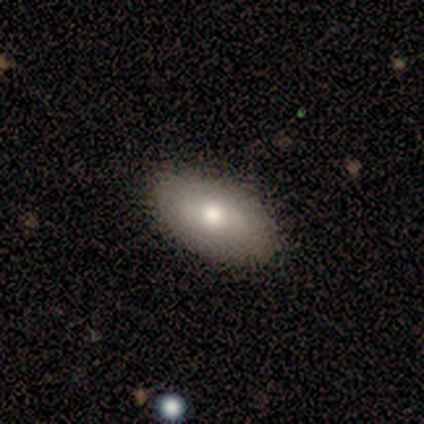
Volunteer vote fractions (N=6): Volunteers were most divided on "smooth or featured": smooth: 83%, featured or disk: 17%, star or artifact: 0%. More confident: how rounded — in between (100%); merging — none (100%).